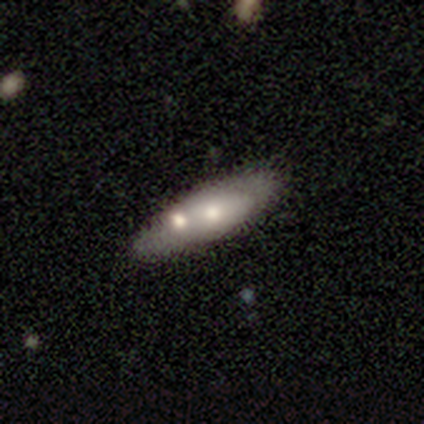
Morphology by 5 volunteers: Volunteers were most divided on "edge-on disk" (2-way tie): yes: 50%, no: 50%. More confident: edge-on bulge — none (100%); smooth or featured — featured or disk (80%); merging — none (60%).